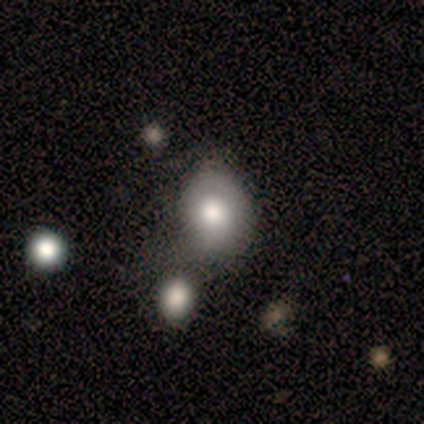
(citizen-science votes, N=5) Q: Smooth or featured?
A: smooth (60%); runner-up: featured or disk (40%)
Q: How rounded?
A: in between (67%); runner-up: round (33%)
Q: Merging?
A: none (40%); tied with: major disturbance (40%)